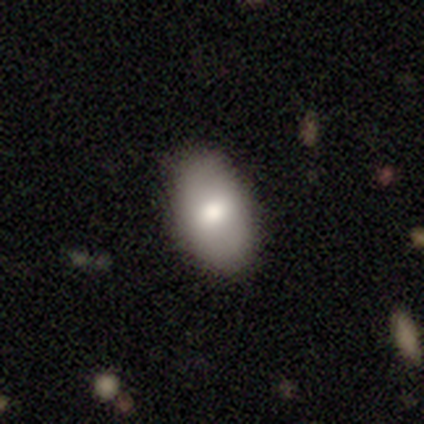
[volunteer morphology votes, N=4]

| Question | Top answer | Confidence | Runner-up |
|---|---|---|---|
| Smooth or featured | smooth | 100% | — |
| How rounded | in between | 100% | — |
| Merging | none | 100% | — |